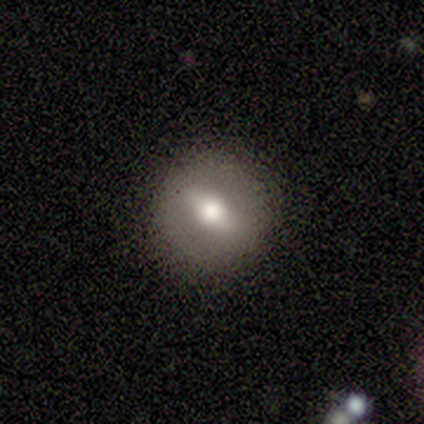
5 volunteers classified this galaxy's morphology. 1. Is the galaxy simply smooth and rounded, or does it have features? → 80% featured or disk, 20% smooth, 0% star or artifact.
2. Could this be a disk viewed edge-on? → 100% no, 0% yes.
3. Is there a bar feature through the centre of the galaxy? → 75% strong, 25% weak, 0% no.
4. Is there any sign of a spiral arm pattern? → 75% no, 25% yes.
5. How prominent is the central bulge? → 75% moderate, 25% large, 0% dominant, 0% small, 0% none.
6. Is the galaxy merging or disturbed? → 100% none, 0% minor disturbance, 0% major disturbance, 0% merger.